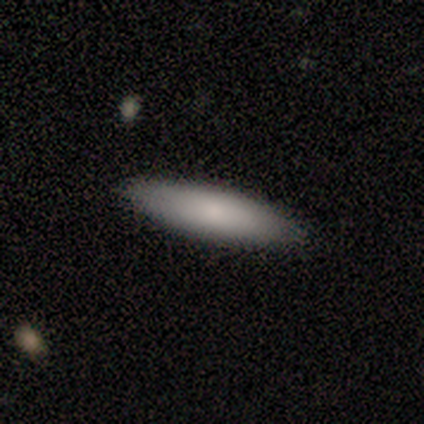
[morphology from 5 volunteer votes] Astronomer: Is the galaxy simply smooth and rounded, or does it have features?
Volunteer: smooth — 100%.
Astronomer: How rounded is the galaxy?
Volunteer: cigar-shaped — 60% (runner-up: in between, 40%).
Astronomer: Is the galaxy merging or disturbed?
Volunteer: none — 100%.